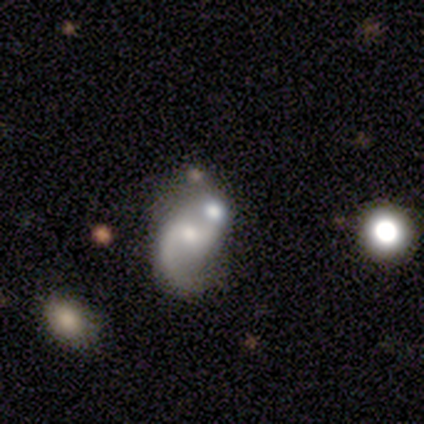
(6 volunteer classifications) Smooth or featured? 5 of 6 (83%) said featured or disk. Edge-on disk? 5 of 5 (100%) said no. Bar? 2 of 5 (40%, tied with no) said weak. Spiral arms? 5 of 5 (100%) said yes. Spiral winding? 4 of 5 (80%) said loose. Spiral arm count? 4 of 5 (80%) said 2. Bulge size? 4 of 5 (80%) said small. Merging? 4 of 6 (67%) said none.